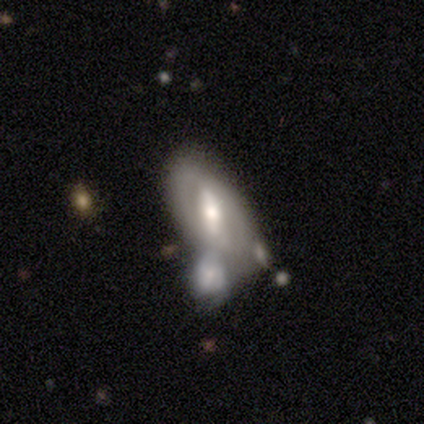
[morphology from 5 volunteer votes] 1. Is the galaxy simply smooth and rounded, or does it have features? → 80% featured or disk, 20% smooth, 0% star or artifact.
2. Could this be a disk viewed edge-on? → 75% no, 25% yes.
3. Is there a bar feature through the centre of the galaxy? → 100% strong, 0% weak, 0% no.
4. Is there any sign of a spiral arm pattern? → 100% no, 0% yes.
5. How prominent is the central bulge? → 100% moderate, 0% dominant, 0% large, 0% small, 0% none.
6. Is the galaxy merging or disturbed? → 60% merger, 40% none, 0% minor disturbance, 0% major disturbance.